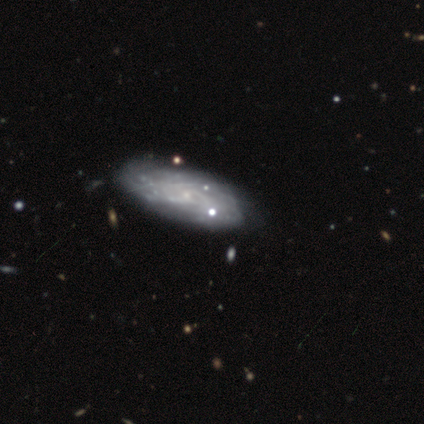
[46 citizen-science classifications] Smooth or featured: featured or disk — 70% (smooth — 17%)
Edge-on disk: no — 94% (yes — 6%)
Bar: no — 87% (weak — 13%)
Spiral arms: yes — 80% (no — 20%)
Spiral winding: tight — 54% (medium — 33%)
Spiral arm count: can't tell — 62% (2 — 12%)
Bulge size: small — 67% (none — 33%)
Merging: none — 52% (minor disturbance — 25%)